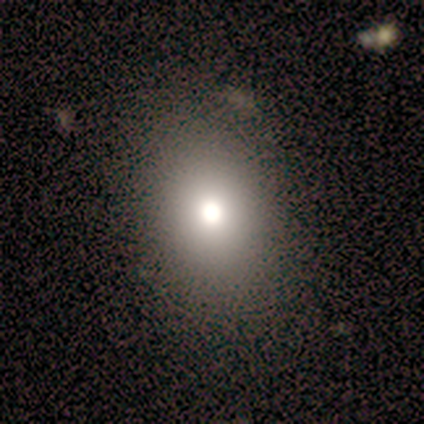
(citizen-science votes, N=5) This is likely a smooth galaxy (60%). How rounded: clearly in between (100%). Merging: possibly none (50%).